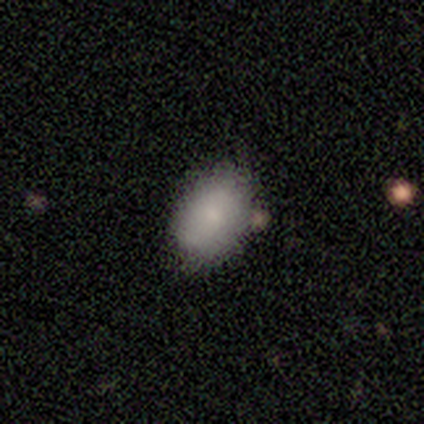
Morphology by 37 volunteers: A smooth galaxy with no disk features (65%) that is in between round and cigar-shaped (83%).

Vote fractions:
- Smooth or featured? smooth: 65% / star or artifact: 19% / featured or disk: 16%
- How rounded? in between: 83% / round: 17% / cigar-shaped: 0%
- Merging? none: 70% / minor disturbance: 17% / merger: 10% / major disturbance: 3%